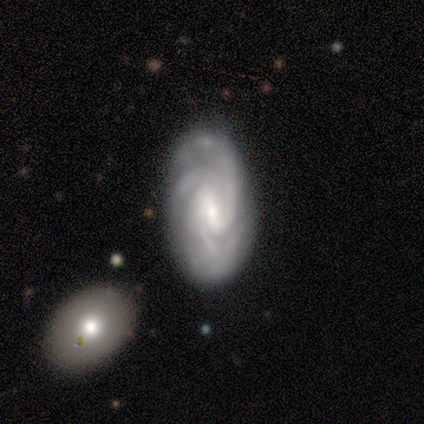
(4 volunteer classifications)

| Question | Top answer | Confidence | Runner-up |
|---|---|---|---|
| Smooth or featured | featured or disk | 75% | smooth (25%) |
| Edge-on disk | no | 100% | — |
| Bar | weak | 67% | strong (33%) |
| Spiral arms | yes | 100% | — |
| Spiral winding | medium | 67% | tight (33%) |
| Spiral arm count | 4 | 67% | 3 (33%) |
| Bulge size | small | 67% | moderate (33%) |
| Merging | none | 50% | minor disturbance (25%) |